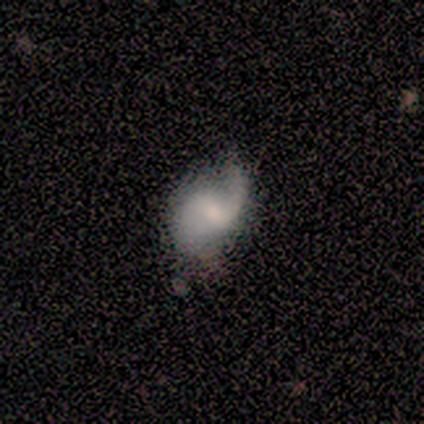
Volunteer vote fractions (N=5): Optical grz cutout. It shows a featured or disk galaxy (80%) with a weak bar (75%), 2 (75%) loose (100%) spiral arms (100%) and a small central bulge (50%). Merging: none (40%, tied with major disturbance).